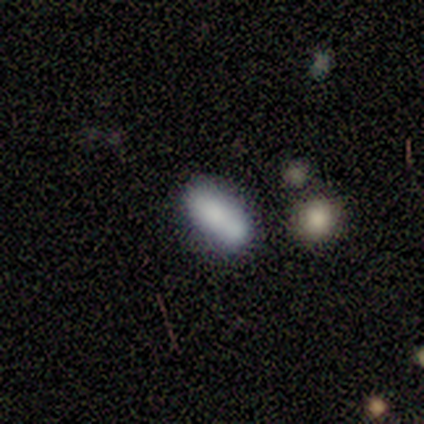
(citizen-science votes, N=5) This appears to be a smooth galaxy with no disk features (80%) that is cigar-shaped (75%). Merging: none (100%).